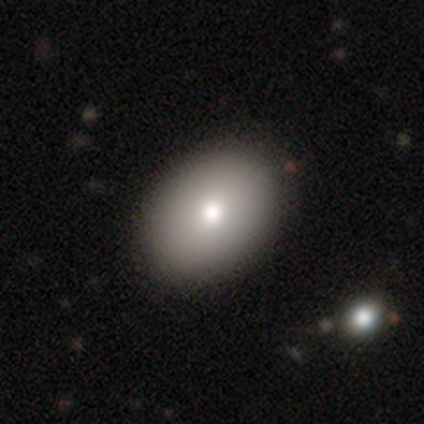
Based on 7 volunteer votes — smooth_or_featured: smooth (p=0.71) [alt: featured or disk p=0.29]
how_rounded: in between (p=1.00)
merging: none (p=1.00)